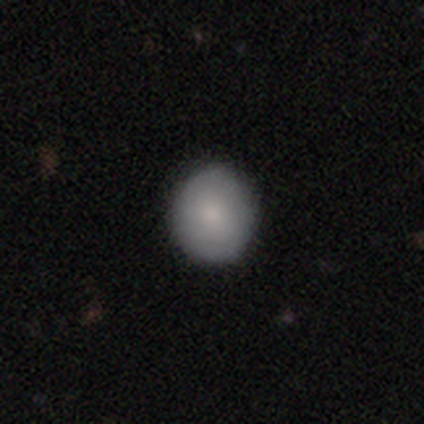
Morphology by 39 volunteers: smooth 87%, featured or disk 10%, star or artifact 3%. Down the decision tree: how rounded — round (91%); merging — none (61%).